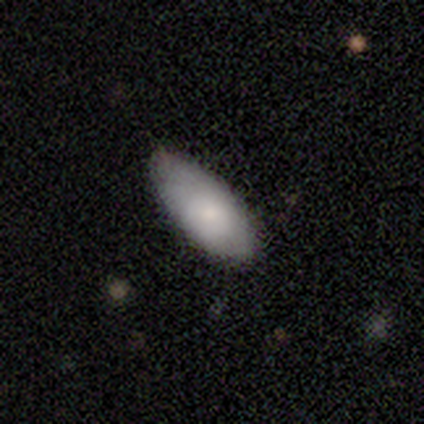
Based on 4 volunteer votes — Smooth or featured?
  - smooth: 50% * (tied)
  - featured or disk: 50% * (tied)
  - star or artifact: 0%
How rounded?
  - in between: 100% *
  - round: 0%
  - cigar-shaped: 0%
Merging?
  - none: 75% *
  - minor disturbance: 25%
  - major disturbance: 0%
  - merger: 0%